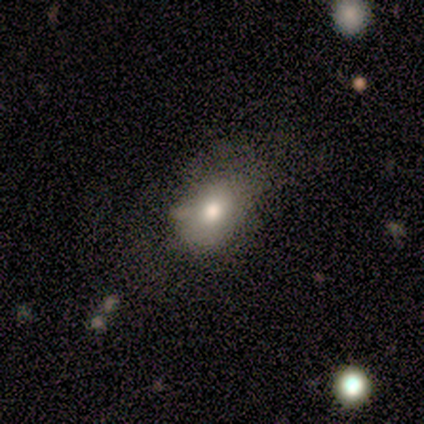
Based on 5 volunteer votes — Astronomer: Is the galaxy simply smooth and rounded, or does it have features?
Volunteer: smooth — 60%.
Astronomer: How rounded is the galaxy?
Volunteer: round — 67%.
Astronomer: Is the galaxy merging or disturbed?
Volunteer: none — 50%.